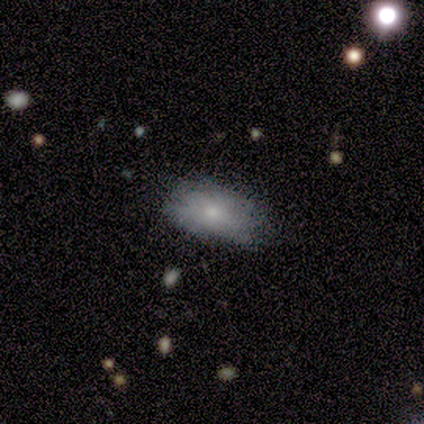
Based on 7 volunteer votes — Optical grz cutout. It shows a smooth galaxy with no disk features (86%) that is in between round and cigar-shaped (67%). Merging: none (50%, tied with minor disturbance).